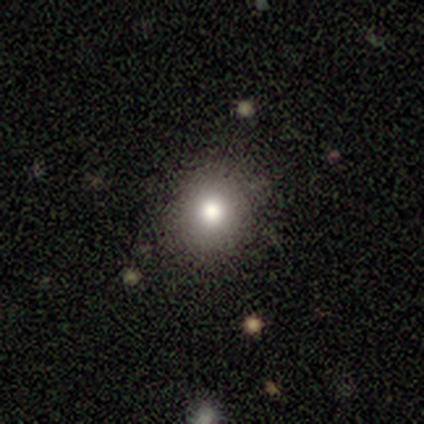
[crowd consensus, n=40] A smooth galaxy with no disk features (90%) that is round (78%).

Vote fractions:
- Smooth or featured? smooth: 90% / star or artifact: 8% / featured or disk: 2%
- How rounded? round: 78% / in between: 19% / cigar-shaped: 3%
- Merging? none: 89% / minor disturbance: 5% / major disturbance: 3% / merger: 3%